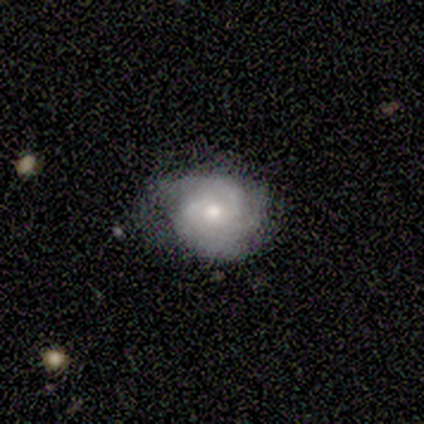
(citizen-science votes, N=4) smooth_or_featured: featured or disk (p=1.00)
disk_edge_on: no (p=1.00)
bar: no (p=1.00)
has_spiral_arms: yes (p=1.00)
spiral_winding: tight (p=1.00)
spiral_arm_count: 3 (p=0.75) [alt: 2 p=0.25]
bulge_size: moderate (p=1.00)
merging: none (p=1.00)